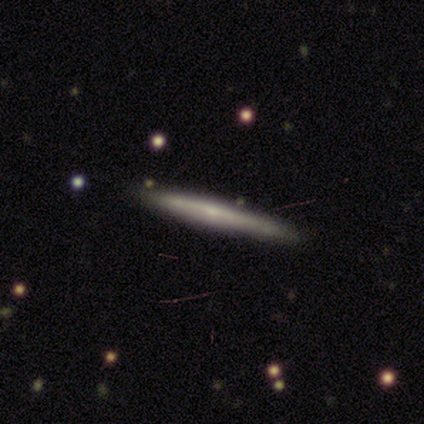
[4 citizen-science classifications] smooth_or_featured: smooth (p=0.75) [alt: featured or disk p=0.25]
how_rounded: cigar-shaped (p=1.00)
merging: none (p=1.00)